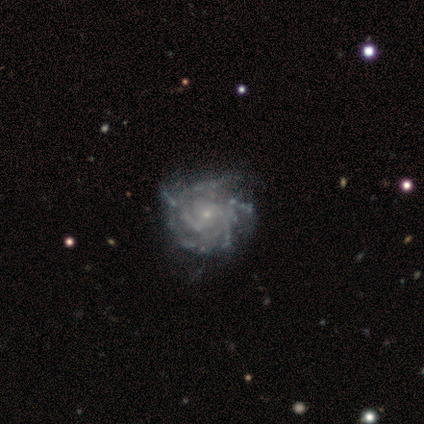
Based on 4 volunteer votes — Smooth or featured: featured or disk — 100%
Edge-on disk: no — 100%
Bar: no — 75% (weak — 25%)
Spiral arms: yes — 100%
Spiral winding: tight — 75% (medium — 25%)
Spiral arm count: can't tell — 75% (4 — 25%)
Bulge size: small — 100%
Merging: none — 50% (tied with minor disturbance — 50%)